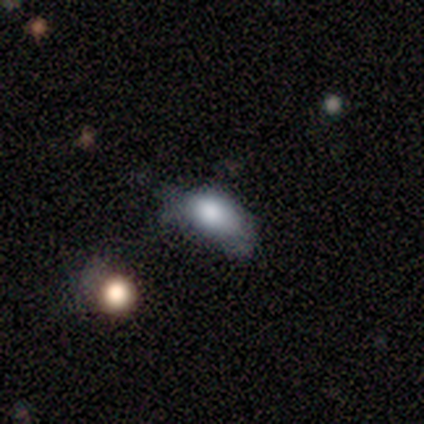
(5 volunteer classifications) Smooth or featured: smooth — 80% (featured or disk — 20%)
How rounded: in between — 100%
Merging: minor disturbance — 40% (tied with major disturbance — 40%)